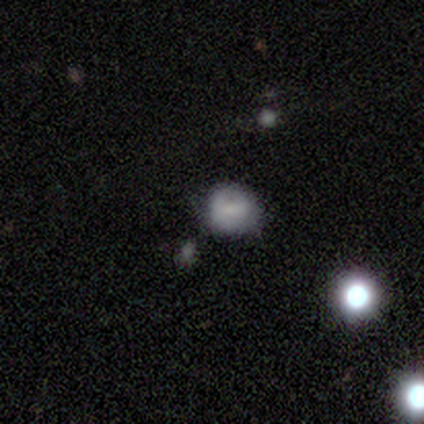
Smooth or featured? smooth (83%)
How rounded? round (100%)
Merging? none (80%)